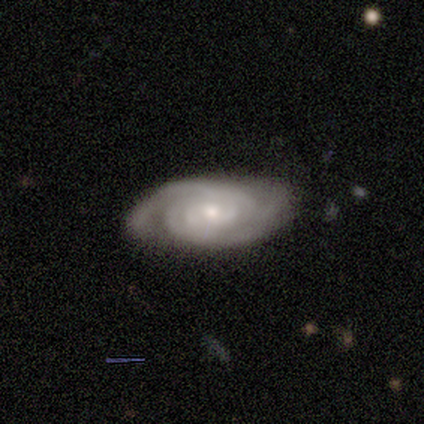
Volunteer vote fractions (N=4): Smooth or featured? 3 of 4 (75%) said featured or disk. Edge-on disk? 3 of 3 (100%) said no. Bar? 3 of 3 (100%) said no. Spiral arms? 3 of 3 (100%) said yes. Spiral winding? 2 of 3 (67%) said tight. Spiral arm count? 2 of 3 (67%) said 2. Bulge size? 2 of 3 (67%) said small. Merging? 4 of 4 (100%) said none.